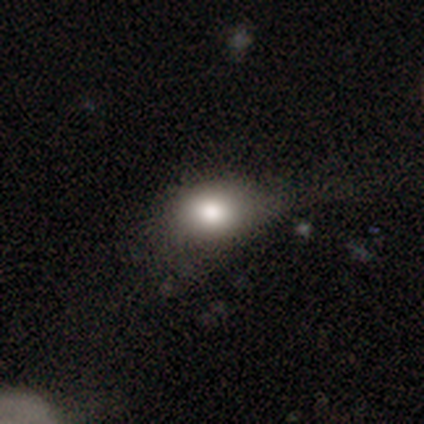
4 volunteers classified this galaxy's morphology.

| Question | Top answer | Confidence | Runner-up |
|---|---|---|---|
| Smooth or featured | smooth | 75% | star or artifact (25%) |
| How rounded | round | 67% | in between (33%) |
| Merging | none | 67% | major disturbance (33%) |